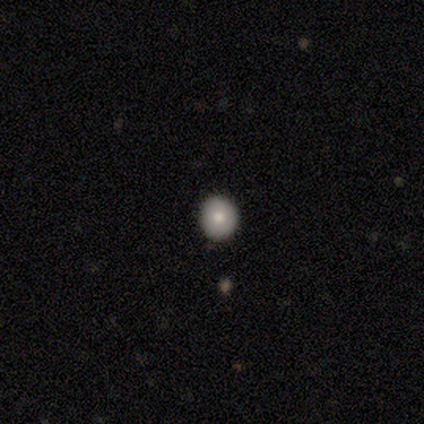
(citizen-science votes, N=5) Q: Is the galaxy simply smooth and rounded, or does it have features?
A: smooth — 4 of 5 (80%).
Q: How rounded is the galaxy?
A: round — 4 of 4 (100%).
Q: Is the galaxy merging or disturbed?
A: none — 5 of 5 (100%).